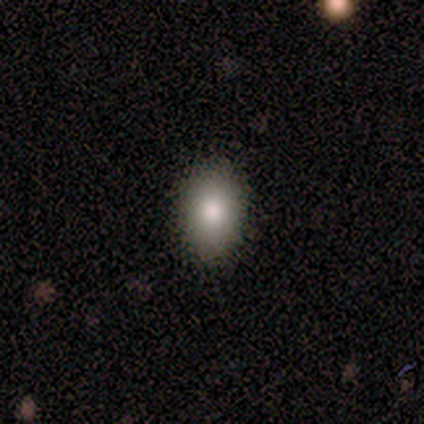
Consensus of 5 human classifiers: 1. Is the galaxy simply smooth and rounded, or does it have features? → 100% smooth, 0% featured or disk, 0% star or artifact.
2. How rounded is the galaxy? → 100% in between, 0% round, 0% cigar-shaped.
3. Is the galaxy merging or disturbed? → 80% none, 20% minor disturbance, 0% major disturbance, 0% merger.